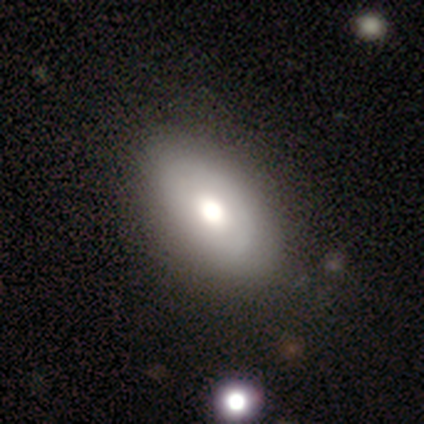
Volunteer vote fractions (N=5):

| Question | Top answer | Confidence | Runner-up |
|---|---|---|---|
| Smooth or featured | smooth | 80% | featured or disk (20%) |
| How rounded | in between | 100% | — |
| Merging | none | 80% | minor disturbance (20%) |